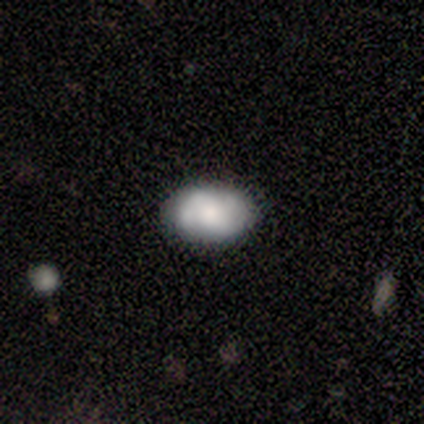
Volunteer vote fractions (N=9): smooth_or_featured: featured or disk (p=0.56) [alt: smooth p=0.44]
disk_edge_on: no (p=1.00)
bar: no (p=0.60) [alt: weak p=0.40]
has_spiral_arms: yes (p=0.60) [alt: no p=0.40]
spiral_winding: tight (p=0.67) [alt: medium p=0.33]
spiral_arm_count: 2 (p=0.67) [alt: 3 p=0.33]
bulge_size: large (p=0.40) [tied with: none p=0.40]
merging: none (p=0.56) [alt: minor disturbance p=0.33]